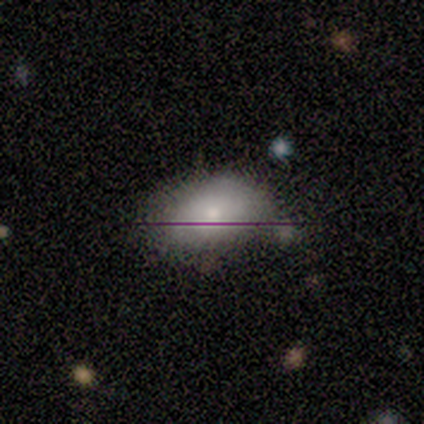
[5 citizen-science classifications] smooth_or_featured: smooth (p=0.60) [alt: featured or disk p=0.40]
how_rounded: in between (p=1.00)
merging: none (p=0.60) [alt: minor disturbance p=0.20]